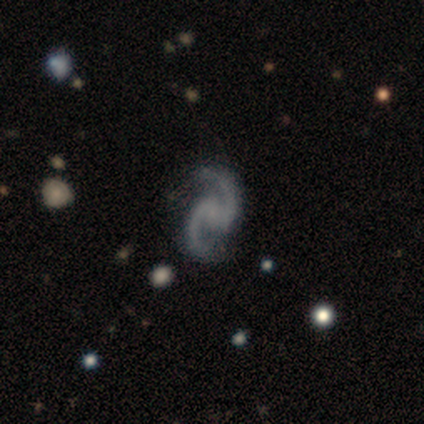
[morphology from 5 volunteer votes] Q: Smooth or featured?
A: featured or disk (100%)
Q: Edge-on disk?
A: no (100%)
Q: Bar?
A: weak (40%); tied with: no (40%)
Q: Spiral arms?
A: yes (80%); runner-up: no (20%)
Q: Spiral winding?
A: medium (75%); runner-up: loose (25%)
Q: Spiral arm count?
A: 2 (100%)
Q: Bulge size?
A: none (100%)
Q: Merging?
A: none (60%); runner-up: minor disturbance (40%)